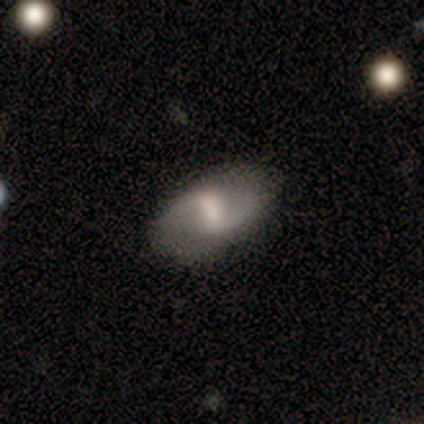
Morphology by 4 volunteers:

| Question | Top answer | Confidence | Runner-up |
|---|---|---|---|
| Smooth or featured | featured or disk | 75% | smooth (25%) |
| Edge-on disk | no | 100% | — |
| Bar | weak | 100% | — |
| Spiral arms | yes | 67% | no (33%) |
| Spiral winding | medium | 100% | — |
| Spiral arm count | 2 | 100% | — |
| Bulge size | moderate | 67% | small (33%) |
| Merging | none | 100% | — |